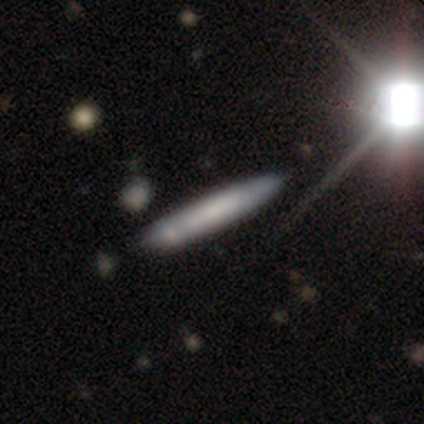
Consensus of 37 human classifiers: smooth_or_featured: smooth (p=0.62) [alt: featured or disk p=0.30]
how_rounded: cigar-shaped (p=1.00)
merging: none (p=0.74) [alt: minor disturbance p=0.15]